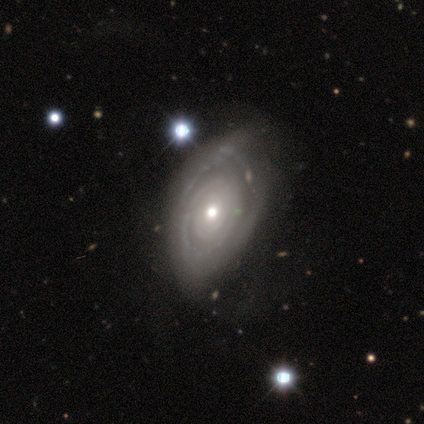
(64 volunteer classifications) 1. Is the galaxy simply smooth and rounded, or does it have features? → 81% featured or disk, 16% smooth, 3% star or artifact.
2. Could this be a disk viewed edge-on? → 98% no, 2% yes.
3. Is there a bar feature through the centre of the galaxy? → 78% no, 20% weak, 2% strong.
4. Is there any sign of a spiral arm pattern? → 76% yes, 24% no.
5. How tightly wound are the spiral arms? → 74% tight, 15% medium, 10% loose.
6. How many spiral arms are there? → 44% can't tell, 28% 2, 21% 3, 8% 4, 0% 1, 0% more than 4.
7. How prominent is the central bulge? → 47% small, 43% moderate, 10% large, 0% dominant, 0% none.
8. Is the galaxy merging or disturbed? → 45% none, 16% minor disturbance, 8% major disturbance, 3% merger.